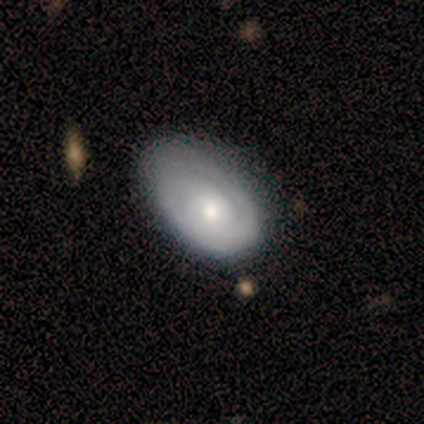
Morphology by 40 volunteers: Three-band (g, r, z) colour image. It shows a featured or disk galaxy (60%) with no bar (92%), tight (69%) spiral arms (54%) and a moderate central bulge (58%). Merging: none (54%).